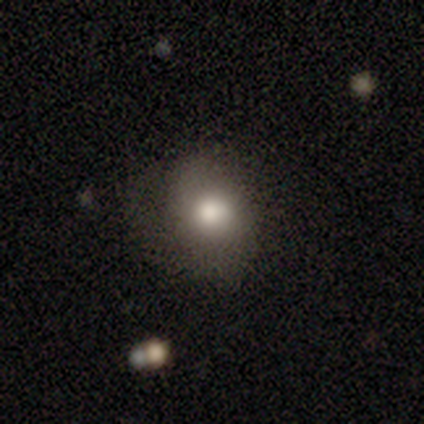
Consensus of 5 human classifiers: Overall: smooth (40%, tied with featured or disk). How rounded: round (100%). Merging: none (50%, tied with minor disturbance).